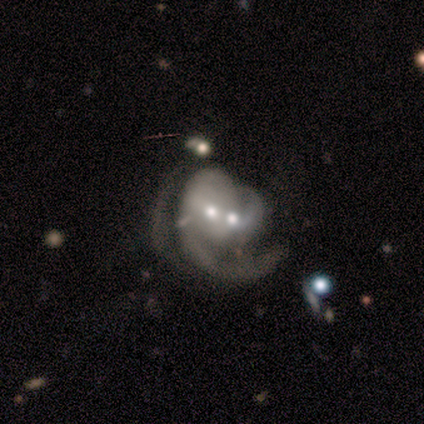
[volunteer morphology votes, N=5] Smooth or featured?
  - featured or disk: 100% *
  - smooth: 0%
  - star or artifact: 0%
Edge-on disk?
  - no: 100% *
  - yes: 0%
Bar?
  - no: 60% *
  - weak: 40%
  - strong: 0%
Spiral arms?
  - yes: 80% *
  - no: 20%
Spiral winding?
  - medium: 50% * (tied)
  - loose: 50% * (tied)
  - tight: 0%
Spiral arm count?
  - 2: 50% *
  - 1: 25%
  - 3: 25%
  - 4: 0%
  - more than 4: 0%
  - can't tell: 0%
Bulge size?
  - small: 80% *
  - moderate: 20%
  - dominant: 0%
  - large: 0%
  - none: 0%
Merging?
  - merger: 80% *
  - minor disturbance: 20%
  - none: 0%
  - major disturbance: 0%